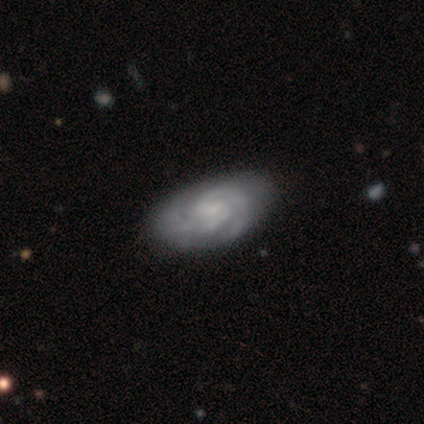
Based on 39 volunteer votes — A featured or disk galaxy (92%) with a weak bar (47%, tied with no), 2 (69%) tight (72%) spiral arms (100%) and a small central bulge (58%). Merging: none (55%).